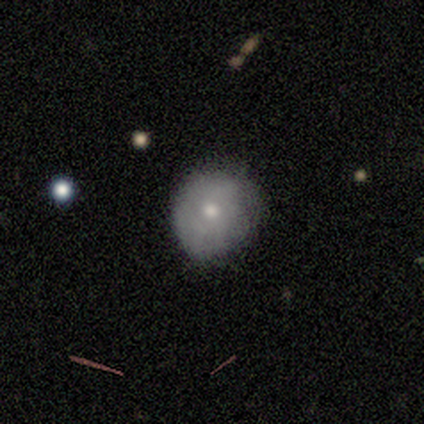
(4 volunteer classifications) Smooth or featured? 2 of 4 (50%) said featured or disk. Edge-on disk? 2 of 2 (100%) said no. Bar? 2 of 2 (100%) said no. Spiral arms? 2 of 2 (100%) said no. Bulge size? 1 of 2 (50%, tied with small) said moderate. Merging? 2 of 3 (67%) said none.